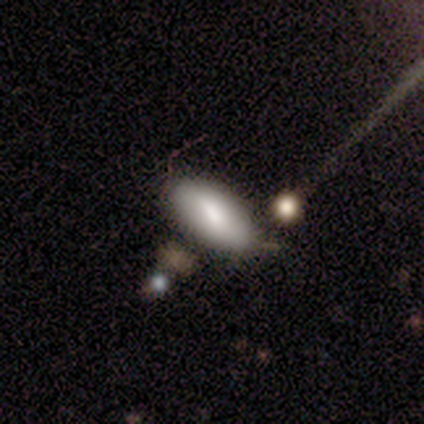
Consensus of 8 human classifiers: A smooth galaxy with no disk features (88%) that is in between round and cigar-shaped (86%). Merging: none (75%).